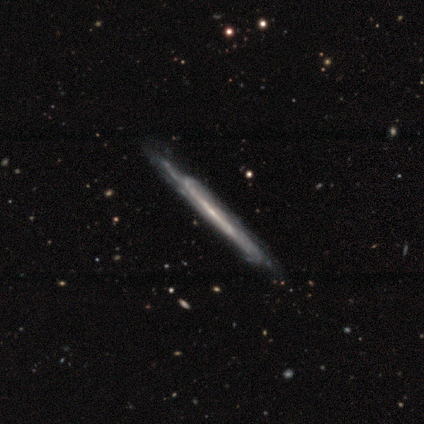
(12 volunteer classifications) Morphology: type=featured or disk (83%); edge-on=yes (80%); edge-on bulge=none (62%); merging=none (73%).